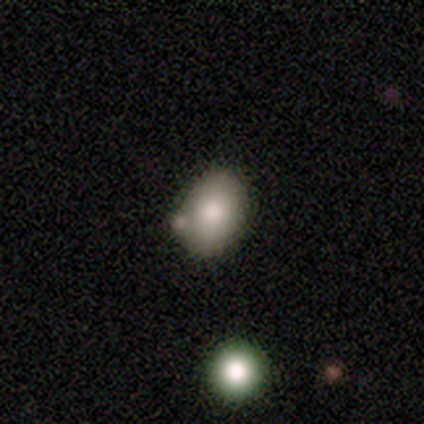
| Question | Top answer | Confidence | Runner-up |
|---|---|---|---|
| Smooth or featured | smooth | 77% | star or artifact (15%) |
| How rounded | in between | 70% | round (30%) |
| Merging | none | 73% | minor disturbance (21%) |